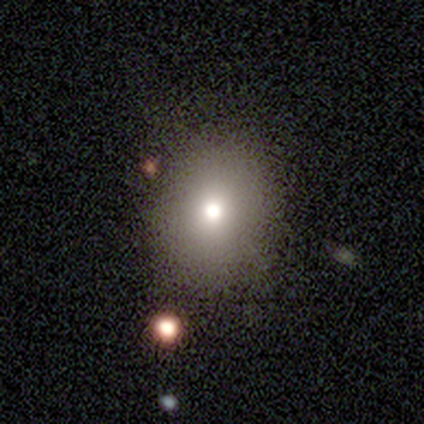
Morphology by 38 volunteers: smooth 76%, featured or disk 13%, star or artifact 11%. Down the decision tree: how rounded — round (72%); merging — none (91%).